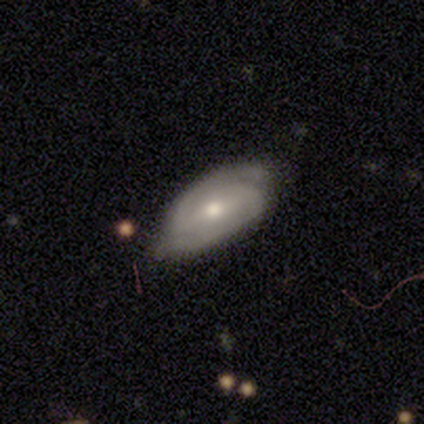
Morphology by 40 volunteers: A featured or disk galaxy (65%) with a weak bar (58%), 2 (96%) tight (52%) spiral arms (96%) and a moderate central bulge (62%).

Vote fractions:
- Smooth or featured? featured or disk: 65% / smooth: 32% / star or artifact: 2%
- Edge-on disk? no: 100% / yes: 0%
- Bar? weak: 58% / no: 23% / strong: 19%
- Spiral arms? yes: 96% / no: 4%
- Spiral winding? tight: 52% / medium: 40% / loose: 8%
- Spiral arm count? 2: 96% / can't tell: 4% / 1: 0% / 3: 0% / 4: 0% / more than 4: 0%
- Bulge size? moderate: 62% / small: 31% / dominant: 4% / large: 4% / none: 0%
- Merging? none: 74% / minor disturbance: 21% / major disturbance: 5% / merger: 0%